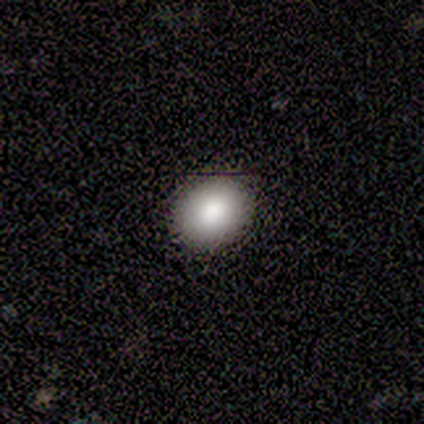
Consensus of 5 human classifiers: Q: Smooth or featured?
A: smooth (80%); runner-up: featured or disk (20%)
Q: How rounded?
A: round (50%); tied with: in between (50%)
Q: Merging?
A: none (60%); runner-up: minor disturbance (40%)